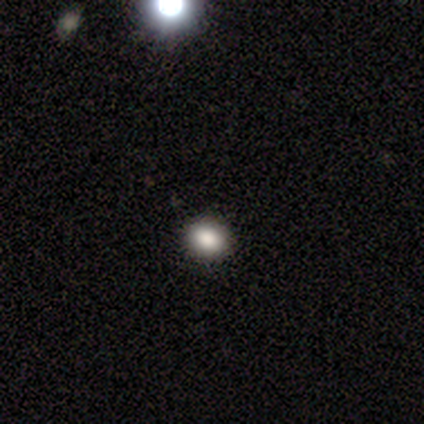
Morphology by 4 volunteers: Smooth or featured?
  - smooth: 100% *
  - featured or disk: 0%
  - star or artifact: 0%
How rounded?
  - in between: 75% *
  - round: 25%
  - cigar-shaped: 0%
Merging?
  - none: 100% *
  - minor disturbance: 0%
  - major disturbance: 0%
  - merger: 0%